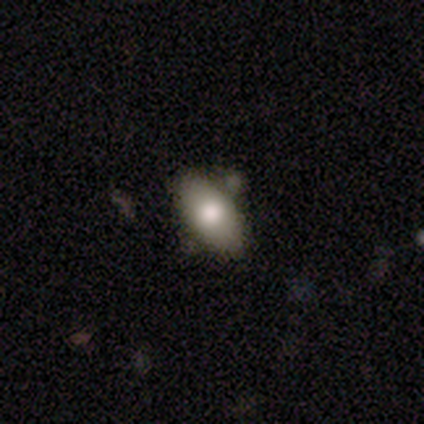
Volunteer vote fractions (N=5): Smooth or featured? 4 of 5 (80%) said smooth. How rounded? 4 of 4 (100%) said in between. Merging? 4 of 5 (80%) said none.